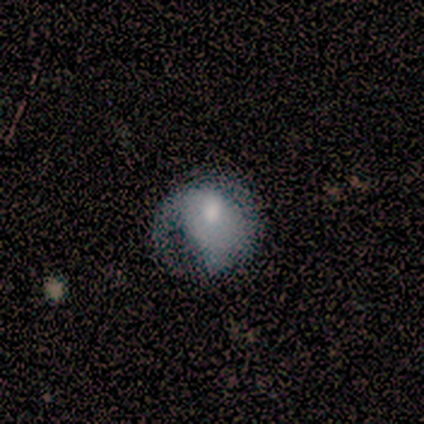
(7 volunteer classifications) This is possibly a smooth galaxy (57%). How rounded: possibly round (50%, tied with in between). Merging: possibly minor disturbance (57%).